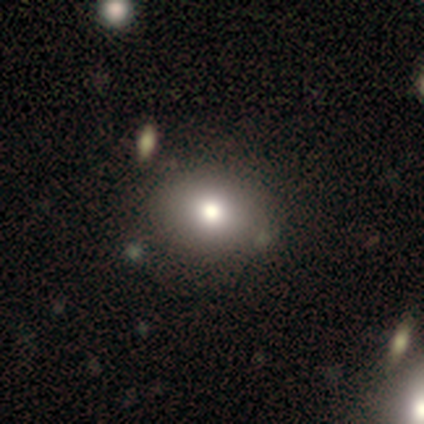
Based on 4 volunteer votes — A smooth galaxy with no disk features (50%) that is round (50%, tied with in between). Merging: none (67%).